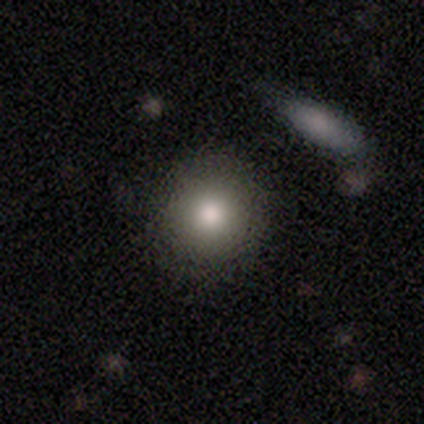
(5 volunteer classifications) Smooth or featured? 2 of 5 (40%, tied with featured or disk) said smooth. How rounded? 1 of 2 (50%, tied with in between) said round. Merging? 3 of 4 (75%) said none.